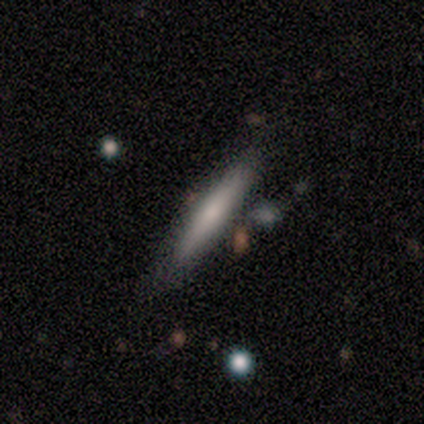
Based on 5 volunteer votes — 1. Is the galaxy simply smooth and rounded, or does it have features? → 80% smooth, 20% featured or disk, 0% star or artifact.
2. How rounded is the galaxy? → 100% cigar-shaped, 0% round, 0% in between.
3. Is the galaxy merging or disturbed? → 80% none, 20% minor disturbance, 0% major disturbance, 0% merger.